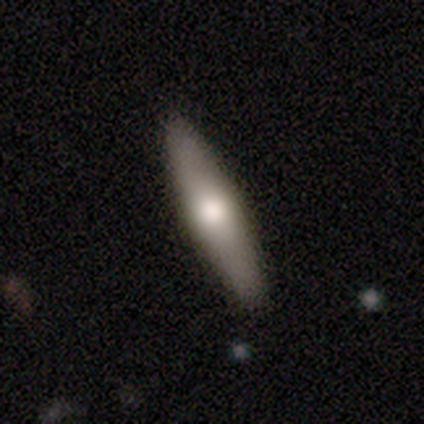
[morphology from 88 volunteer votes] Smooth or featured? 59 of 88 (67%) said smooth. How rounded? 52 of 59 (88%) said cigar-shaped. Merging? 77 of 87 (89%) said none.